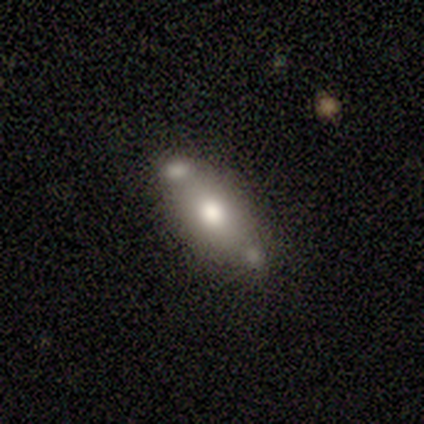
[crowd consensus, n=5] smooth-or-featured: smooth: 60% | star or artifact: 40% | featured or disk: 0%
  how-rounded: in between: 67% | cigar-shaped: 33% | round: 0%
  merging: none: 67% | minor disturbance: 33% | major disturbance: 0% | merger: 0%